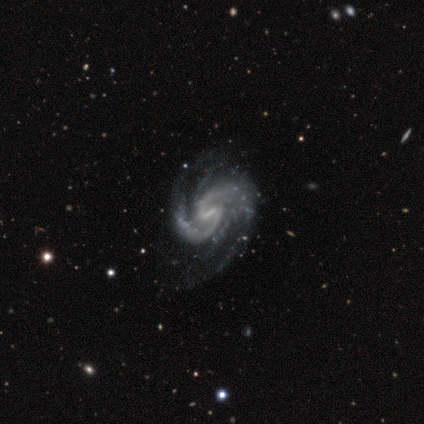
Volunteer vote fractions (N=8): Smooth or featured?
  - featured or disk: 88% *
  - star or artifact: 12%
  - smooth: 0%
Edge-on disk?
  - no: 100% *
  - yes: 0%
Bar?
  - weak: 86% *
  - no: 14%
  - strong: 0%
Spiral arms?
  - yes: 100% *
  - no: 0%
Spiral winding?
  - medium: 43% * (tied)
  - loose: 43% * (tied)
  - tight: 14%
Spiral arm count?
  - 2: 57% *
  - 4: 29%
  - can't tell: 14%
  - 1: 0%
  - 3: 0%
  - more than 4: 0%
Bulge size?
  - none: 57% *
  - small: 29%
  - moderate: 14%
  - dominant: 0%
  - large: 0%
Merging?
  - minor disturbance: 57% *
  - none: 43%
  - major disturbance: 0%
  - merger: 0%